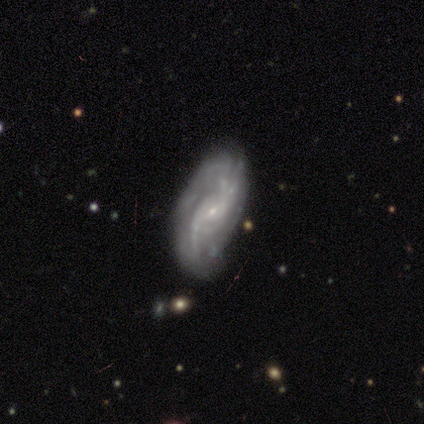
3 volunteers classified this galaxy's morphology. Smooth or featured: featured or disk — 100%
Edge-on disk: no — 100%
Bar: no — 67% (weak — 33%)
Spiral arms: yes — 100%
Spiral winding: loose — 67% (medium — 33%)
Spiral arm count: 2 — 67% (3 — 33%)
Bulge size: small — 100%
Merging: none — 67% (minor disturbance — 33%)